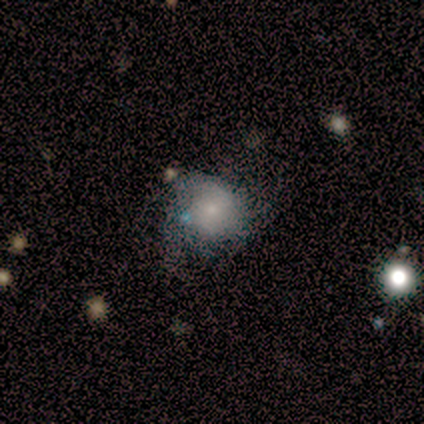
smooth_or_featured: smooth (p=0.60) [alt: featured or disk p=0.40]
how_rounded: round (p=0.83) [alt: in between p=0.17]
merging: none (p=0.60) [alt: major disturbance p=0.30]